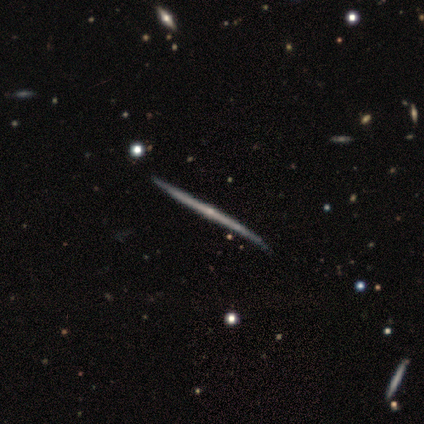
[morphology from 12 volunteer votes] featured or disk 92%, smooth 8%, star or artifact 0%. Down the decision tree: edge-on disk — yes (100%); edge-on bulge — none (55%); merging — none (75%).